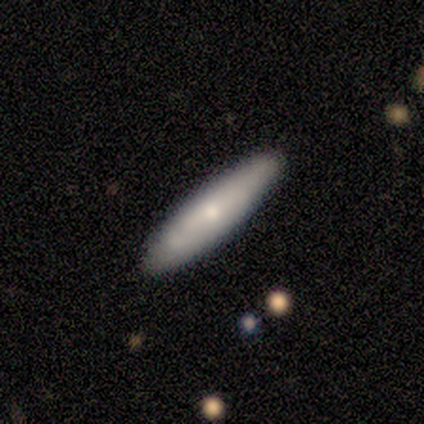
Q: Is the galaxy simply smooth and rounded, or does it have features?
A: smooth — 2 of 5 (40%, tied with featured or disk).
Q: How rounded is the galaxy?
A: in between — 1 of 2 (50%, tied with cigar-shaped).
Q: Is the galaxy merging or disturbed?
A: none — 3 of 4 (75%).